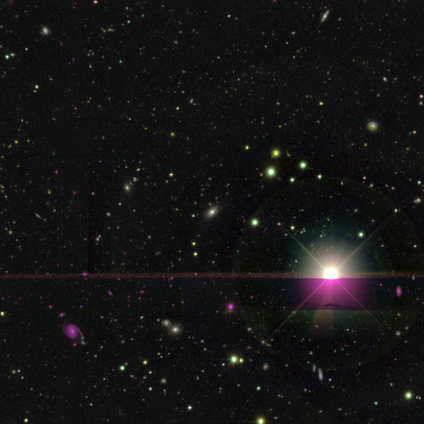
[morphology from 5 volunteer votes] This appears to be a star or artifact, not a galaxy (60%).